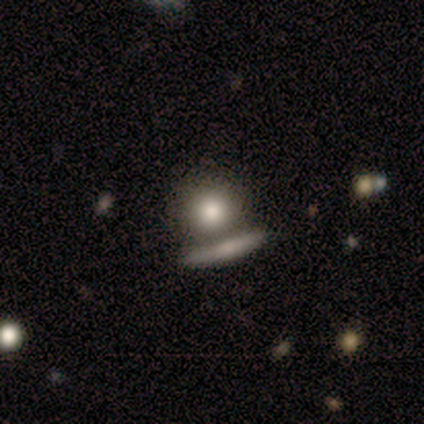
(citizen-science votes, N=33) Morphology: type=smooth (67%); roundness=round (95%); merging=none (52%).